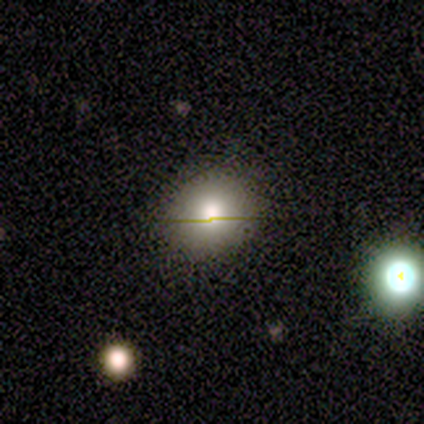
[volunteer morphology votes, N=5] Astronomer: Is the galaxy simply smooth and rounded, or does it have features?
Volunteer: smooth — 60% (runner-up: featured or disk, 40%).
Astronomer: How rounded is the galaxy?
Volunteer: round — 67%.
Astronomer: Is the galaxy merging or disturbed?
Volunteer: none — 100%.